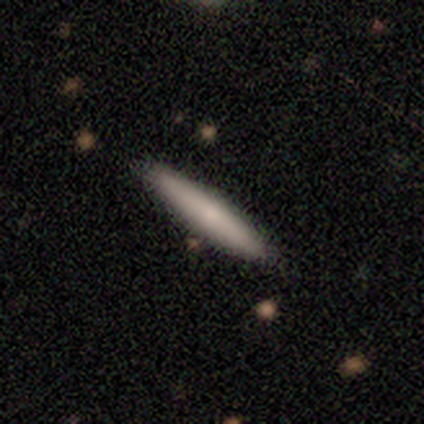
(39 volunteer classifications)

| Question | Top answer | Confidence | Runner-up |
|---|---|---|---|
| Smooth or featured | smooth | 69% | featured or disk (28%) |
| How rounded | cigar-shaped | 93% | in between (7%) |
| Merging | none | 63% | minor disturbance (5%) |